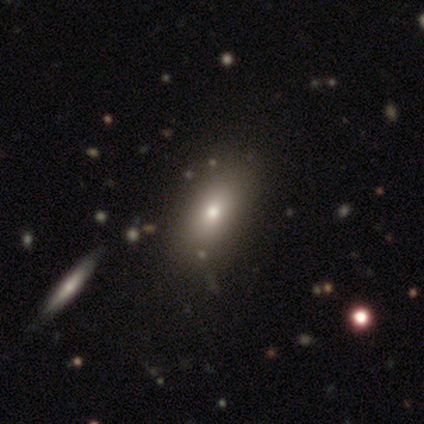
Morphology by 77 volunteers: Smooth or featured? 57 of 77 (74%) said smooth. How rounded? 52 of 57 (91%) said in between. Merging? 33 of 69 (48%) said none.